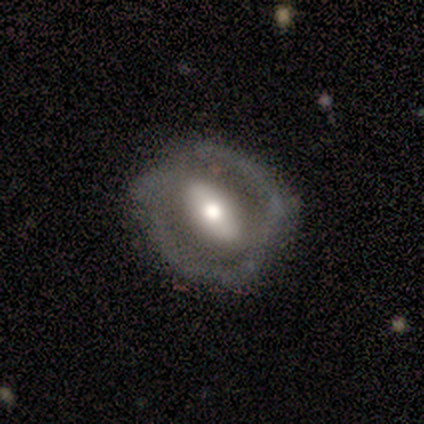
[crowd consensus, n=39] Overall: featured or disk (79%). Edge-on disk: no (90%). Bar: strong (50%; weak 29%). Spiral arms: no (75%). Bulge size: moderate (64%). Merging: none (66%).